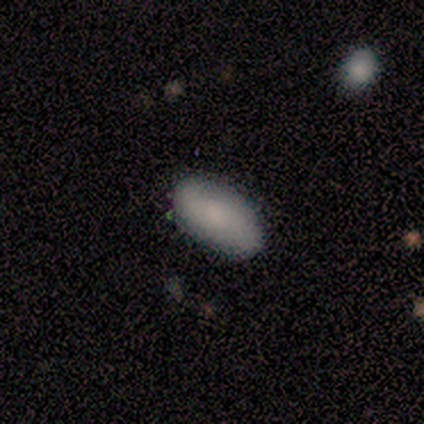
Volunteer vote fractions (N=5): A smooth galaxy with no disk features (80%) that is in between round and cigar-shaped (75%). Merging: none (100%).